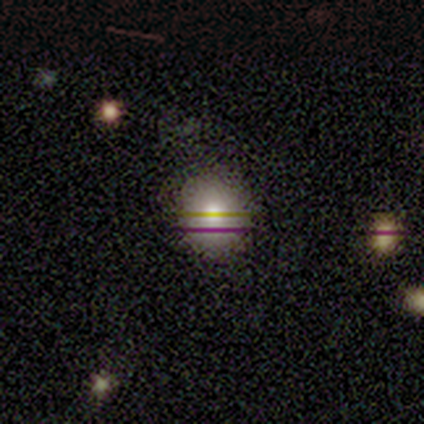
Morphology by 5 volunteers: Smooth or featured? 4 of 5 (80%) said smooth. How rounded? 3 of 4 (75%) said round. Merging? 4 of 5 (80%) said none.